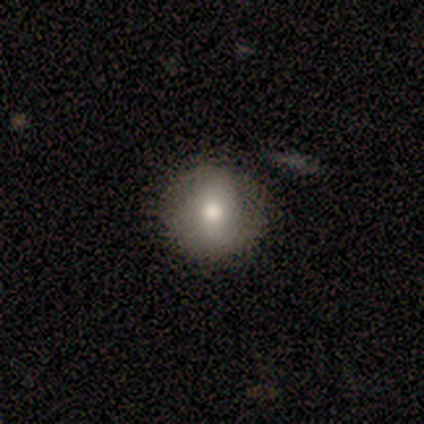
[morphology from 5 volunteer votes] This appears to be a smooth galaxy with no disk features (100%) that is round (100%). Merging: none (80%).